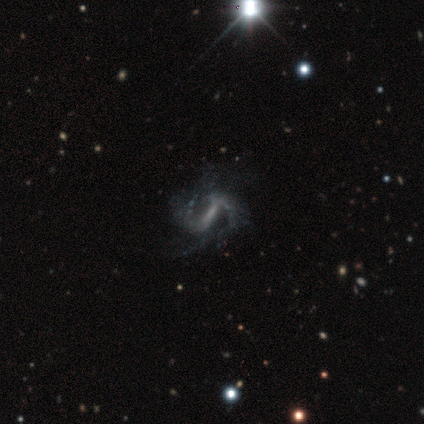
Smooth or featured? 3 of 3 (100%) said featured or disk. Edge-on disk? 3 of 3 (100%) said no. Bar? 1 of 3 (33%, tied with weak and no) said strong. Spiral arms? 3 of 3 (100%) said yes. Spiral winding? 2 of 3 (67%) said medium. Spiral arm count? 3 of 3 (100%) said 2. Bulge size? 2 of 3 (67%) said none. Merging? 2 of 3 (67%) said none.